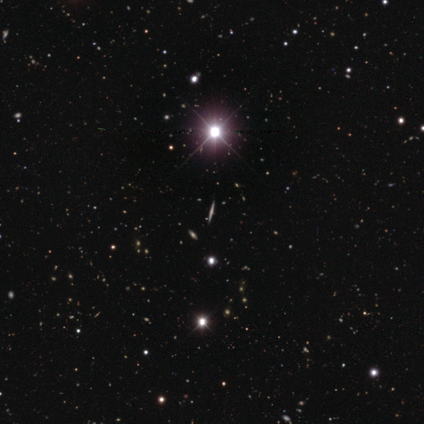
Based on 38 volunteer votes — Smooth or featured? star or artifact (63%)